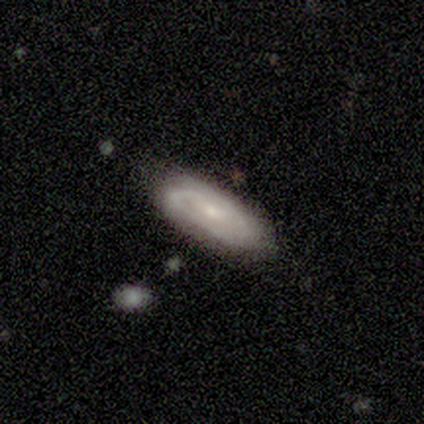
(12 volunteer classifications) Morphology: type=featured or disk (75%); edge-on=no (89%); bar=no (62%); spiral arms=yes (88%); winding=medium (57%); arm count=2 (43%); bulge=small (75%); merging=none (92%).